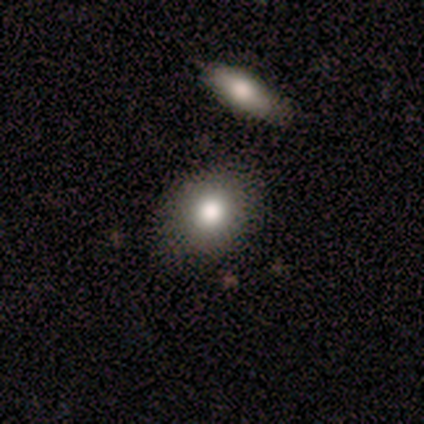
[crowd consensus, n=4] This appears to be a smooth galaxy with no disk features (100%) that is round (50%, tied with in between). Merging: none (50%).